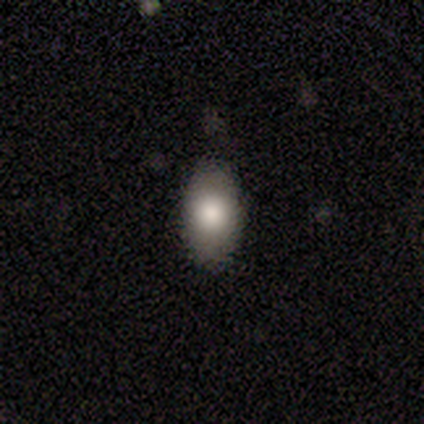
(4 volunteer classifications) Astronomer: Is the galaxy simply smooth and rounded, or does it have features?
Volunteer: smooth — 75%.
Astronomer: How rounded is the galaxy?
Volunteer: in between — 67%.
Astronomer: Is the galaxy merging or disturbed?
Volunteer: none — 50%, tied with minor disturbance at 50%.